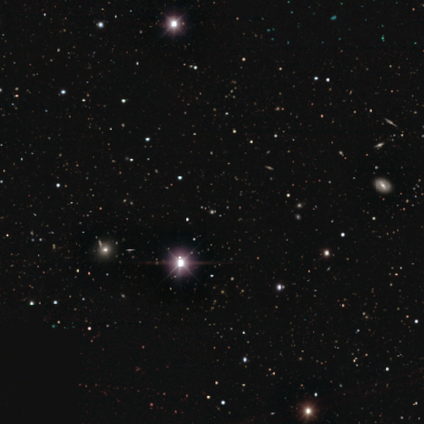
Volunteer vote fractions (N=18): A star or artifact, not a galaxy (89%).